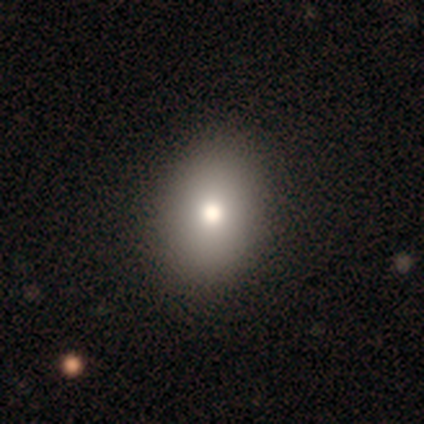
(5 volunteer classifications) smooth 80%, star or artifact 20%, featured or disk 0%. Down the decision tree: how rounded — in between (100%); merging — none (100%).